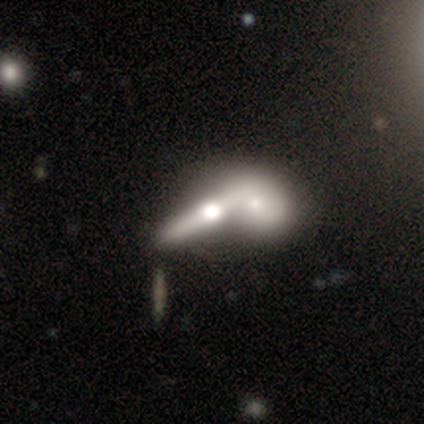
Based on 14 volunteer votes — This appears to be a featured or disk galaxy (71%) viewed edge-on (70%) with a rounded central bulge (100%). Merging: merger (69%).